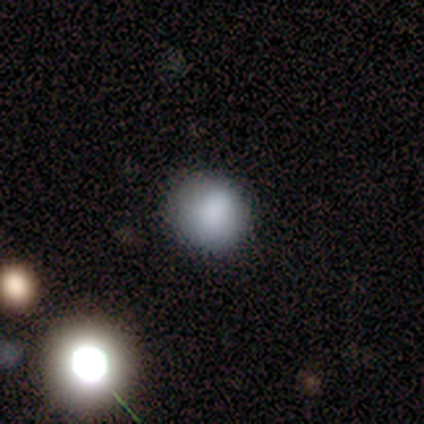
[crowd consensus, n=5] Overall: smooth (100%). How rounded: round (80%). Merging: none (40%, tied with minor disturbance).